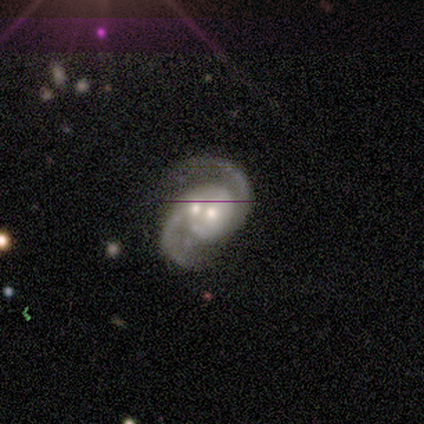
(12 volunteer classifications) Smooth or featured? featured or disk (92%)
Edge-on disk? no (91%)
Bar? no (80%)
Spiral arms? yes (100%)
Spiral winding? medium (70%)
Spiral arm count? 2 (90%)
Bulge size? moderate (60%)
Merging? merger (55%)